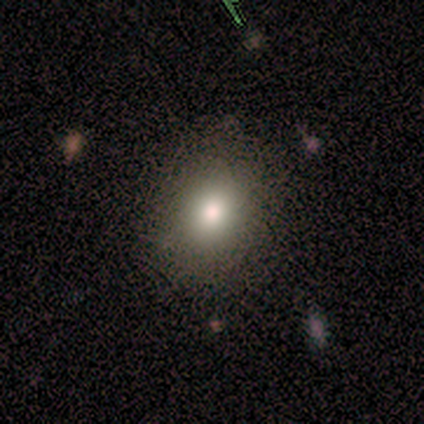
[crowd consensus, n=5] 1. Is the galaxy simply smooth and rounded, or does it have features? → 80% smooth, 20% featured or disk, 0% star or artifact.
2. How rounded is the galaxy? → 100% round, 0% in between, 0% cigar-shaped.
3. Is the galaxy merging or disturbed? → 100% none, 0% minor disturbance, 0% major disturbance, 0% merger.